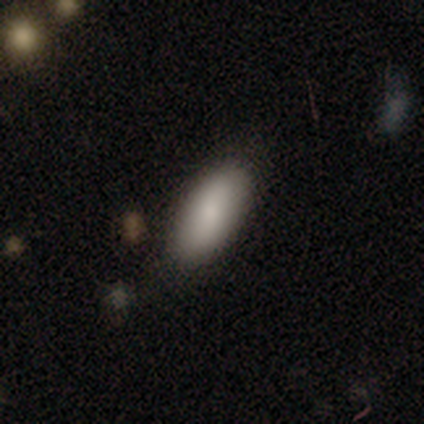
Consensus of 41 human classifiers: Morphology: type=smooth (90%); roundness=in between (89%); merging=none (87%).